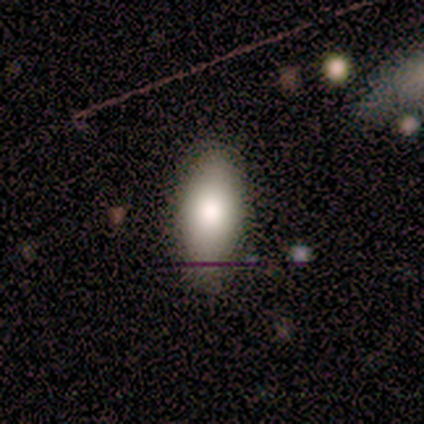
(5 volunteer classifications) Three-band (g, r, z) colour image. It shows a smooth galaxy with no disk features (100%) that is in between round and cigar-shaped (100%). Merging: none (80%).